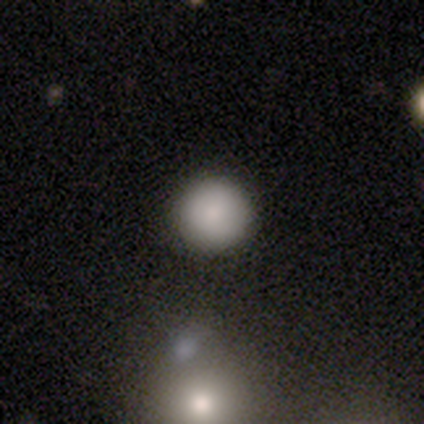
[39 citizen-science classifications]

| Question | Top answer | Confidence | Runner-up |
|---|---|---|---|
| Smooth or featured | smooth | 85% | star or artifact (10%) |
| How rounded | round | 94% | in between (6%) |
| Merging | none | 97% | merger (3%) |